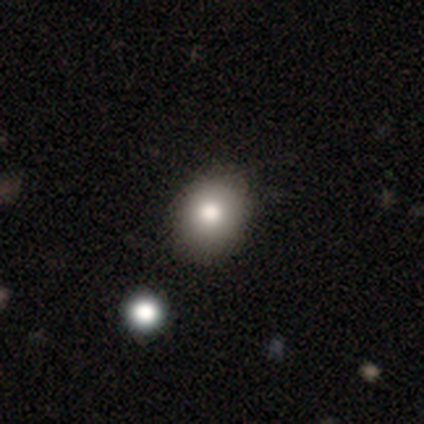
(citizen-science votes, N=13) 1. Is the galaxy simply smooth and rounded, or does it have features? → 69% smooth, 15% featured or disk, 15% star or artifact.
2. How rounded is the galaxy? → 67% in between, 33% round, 0% cigar-shaped.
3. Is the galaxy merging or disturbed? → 82% none, 18% minor disturbance, 0% major disturbance, 0% merger.